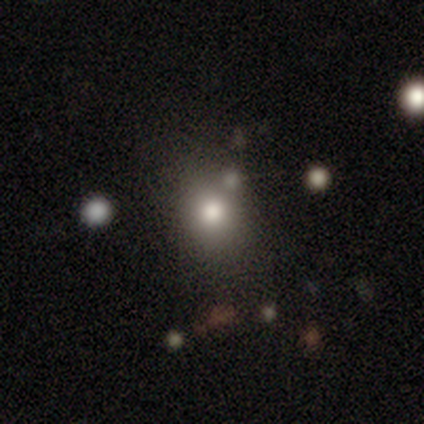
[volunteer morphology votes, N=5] Smooth or featured? smooth (60%)
How rounded? round (67%)
Merging? none (100%)